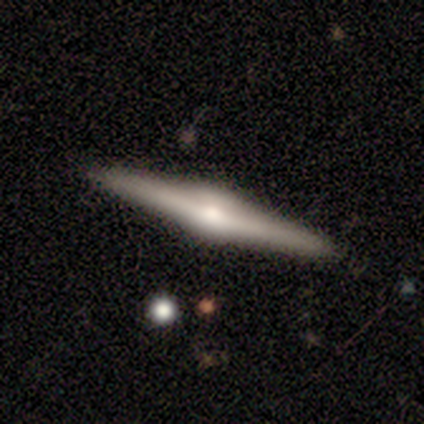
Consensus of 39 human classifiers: Smooth or featured? 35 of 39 (90%) said featured or disk. Edge-on disk? 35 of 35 (100%) said yes. Edge-on bulge? 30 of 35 (86%) said rounded. Merging? 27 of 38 (71%) said none.